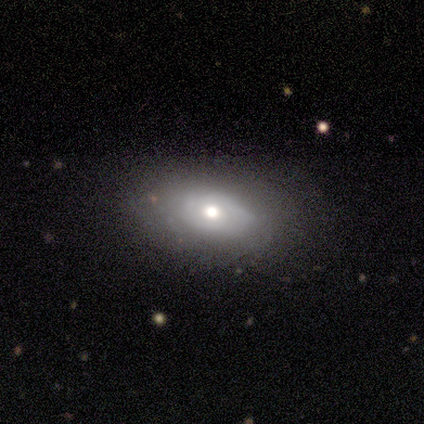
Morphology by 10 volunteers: smooth-or-featured: featured or disk: 50% | smooth: 40% | star or artifact: 10%
  disk-edge-on: no: 100% | yes: 0%
    bar: no: 80% | weak: 20% | strong: 0%
    has-spiral-arms: yes: 60% | no: 40%
      spiral-winding: tight: 67% | medium: 33% | loose: 0%
      spiral-arm-count: can't tell: 67% | 3: 33% | 1: 0% | 2: 0% | 4: 0% | more than 4: 0%
    bulge-size: moderate: 100% | dominant: 0% | large: 0% | small: 0% | none: 0%
  merging: none: 89% | minor disturbance: 11% | major disturbance: 0% | merger: 0%